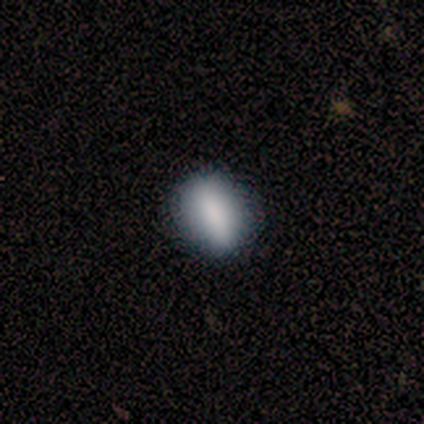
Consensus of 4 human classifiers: This is likely a smooth galaxy (75%). How rounded: marginally round (33%, tied with in between and cigar-shaped). Merging: likely none (75%).